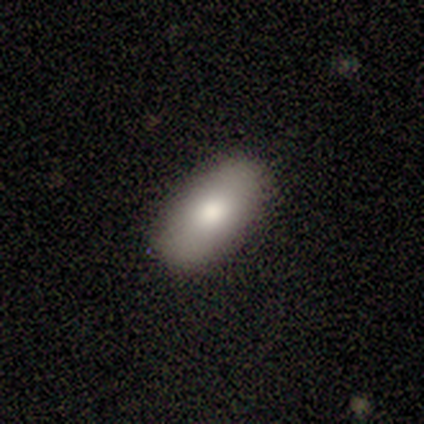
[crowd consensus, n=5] Smooth or featured?
  - smooth: 80% *
  - featured or disk: 20%
  - star or artifact: 0%
How rounded?
  - in between: 100% *
  - round: 0%
  - cigar-shaped: 0%
Merging?
  - none: 100% *
  - minor disturbance: 0%
  - major disturbance: 0%
  - merger: 0%